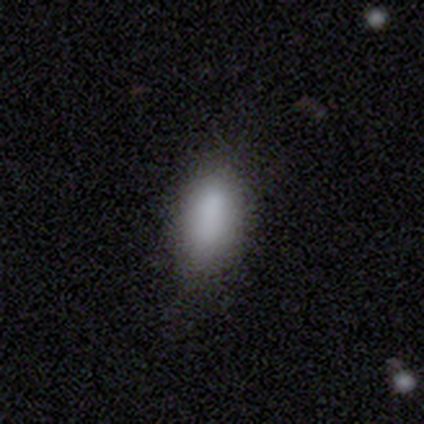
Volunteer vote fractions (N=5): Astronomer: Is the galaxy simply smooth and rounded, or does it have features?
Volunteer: smooth — 100%.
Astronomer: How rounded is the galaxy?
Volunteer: in between — 80%.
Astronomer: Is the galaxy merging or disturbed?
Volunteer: none — 80%.